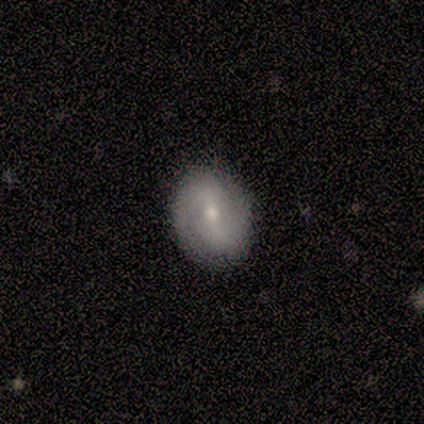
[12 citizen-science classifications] Volunteers were most divided on "spiral arm count" (2-way tie): 2: 50%, can't tell: 50%, 1: 0%, 3: 0%, 4: 0%, more than 4: 0%. Remaining: edge-on disk — no (100%); merging — none (92%); spiral arms — yes (86%); bulge size — moderate (86%); smooth or featured — featured or disk (58%); spiral winding — medium (50%); bar — weak (43%).